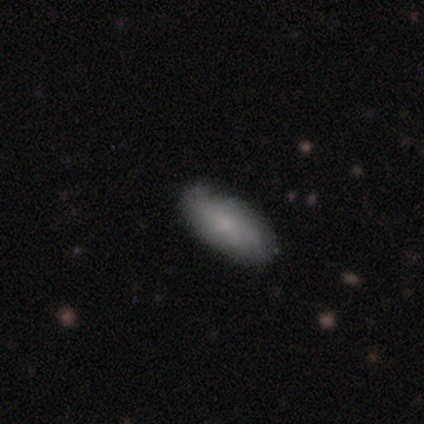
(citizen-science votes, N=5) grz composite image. It shows a smooth galaxy with no disk features (80%) that is in between round and cigar-shaped (100%). Merging: none (80%).